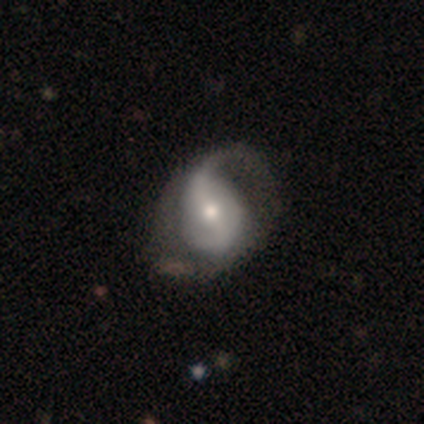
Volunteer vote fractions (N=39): featured or disk 72%, smooth 26%, star or artifact 3%. Down the decision tree: edge-on disk — no (96%); bar — strong (33%, tied with weak and no); spiral arms — yes (81%); spiral arm count — 2 (50%); spiral winding — loose (59%); bulge size — moderate (63%); merging — none (55%).